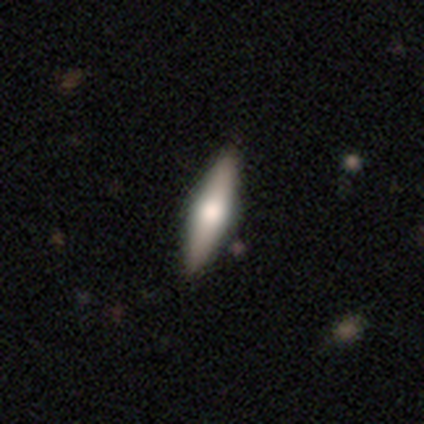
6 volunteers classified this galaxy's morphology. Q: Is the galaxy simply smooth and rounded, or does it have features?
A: featured or disk — 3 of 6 (50%).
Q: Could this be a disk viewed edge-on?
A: yes — 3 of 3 (100%).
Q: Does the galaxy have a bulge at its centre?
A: rounded — 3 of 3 (100%).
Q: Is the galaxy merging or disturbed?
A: none — 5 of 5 (100%).